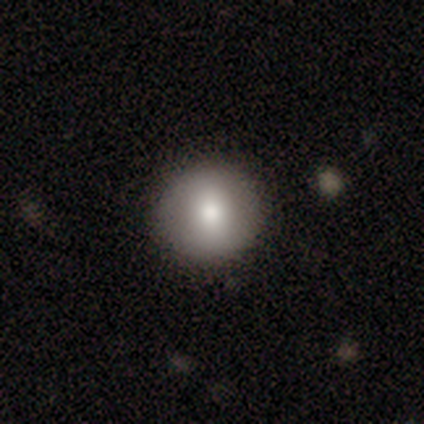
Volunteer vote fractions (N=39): Morphology: type=smooth (69%); roundness=round (100%); merging=none (94%).